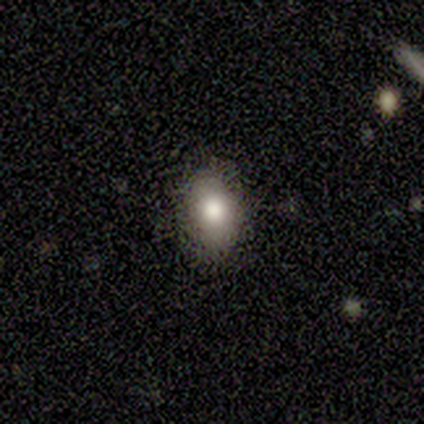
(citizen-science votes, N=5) smooth-or-featured: smooth: 60% | featured or disk: 20% | star or artifact: 20%
  how-rounded: in between: 67% | round: 33% | cigar-shaped: 0%
  merging: none: 50% (tied) | minor disturbance: 50% (tied) | major disturbance: 0% | merger: 0%